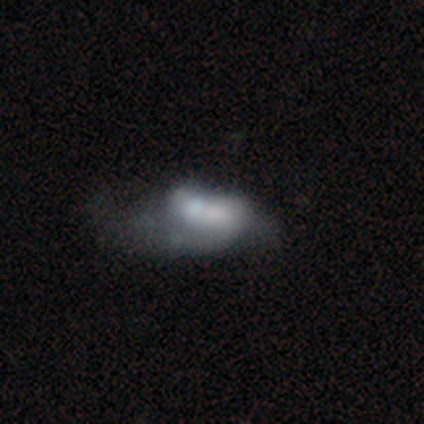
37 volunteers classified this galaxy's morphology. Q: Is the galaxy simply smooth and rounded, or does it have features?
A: featured or disk — 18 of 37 (49%).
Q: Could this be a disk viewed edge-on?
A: no — 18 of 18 (100%).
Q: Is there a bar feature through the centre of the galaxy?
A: no — 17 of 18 (94%).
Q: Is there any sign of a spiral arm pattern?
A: no — 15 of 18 (83%).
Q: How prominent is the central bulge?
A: small — 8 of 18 (44%).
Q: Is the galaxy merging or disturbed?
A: merger — 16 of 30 (53%).